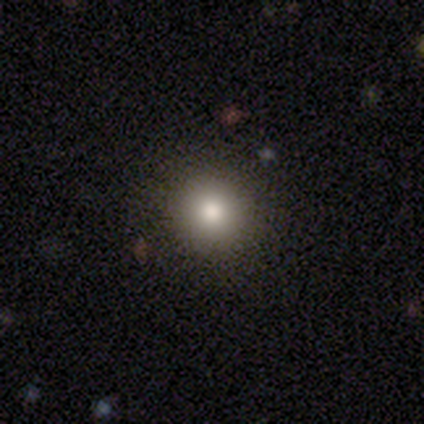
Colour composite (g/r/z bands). It shows a smooth galaxy with no disk features (72%) that is round (93%). Merging: none (62%).